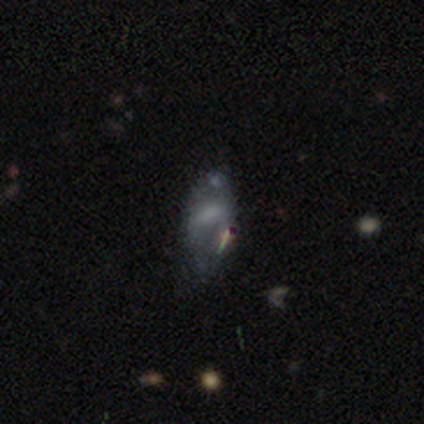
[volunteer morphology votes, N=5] featured or disk 60%, smooth 40%, star or artifact 0%. Down the decision tree: edge-on disk — no (100%); bar — no (100%); spiral arms — no (100%); bulge size — large (67%); merging — minor disturbance (60%).